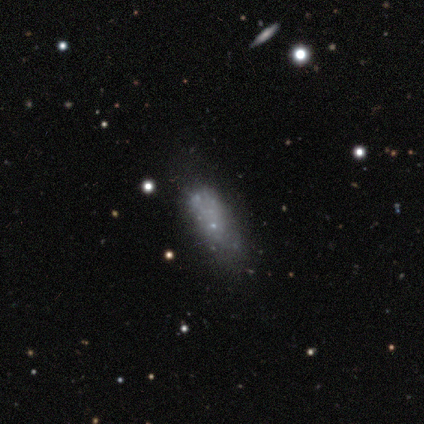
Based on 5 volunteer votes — Smooth or featured? smooth (40%, tied with star or artifact)
How rounded? in between (50%, tied with cigar-shaped)
Merging? none (67%)